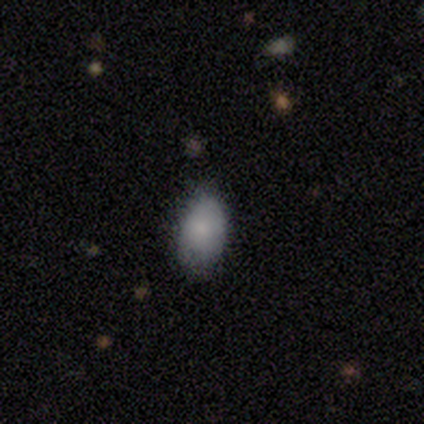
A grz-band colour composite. It shows a smooth galaxy with no disk features (100%) that is in between round and cigar-shaped (100%). Merging: none (80%).